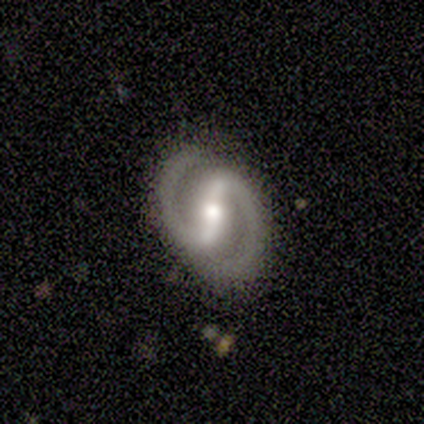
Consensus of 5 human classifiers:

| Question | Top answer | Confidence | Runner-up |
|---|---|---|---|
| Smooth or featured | featured or disk | 100% | — |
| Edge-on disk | no | 100% | — |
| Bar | strong | 60% | weak (40%) |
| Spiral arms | yes | 100% | — |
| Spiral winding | medium | 60% | tight (20%) |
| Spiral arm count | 2 | 100% | — |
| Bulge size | moderate | 80% | small (20%) |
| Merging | none | 80% | major disturbance (20%) |